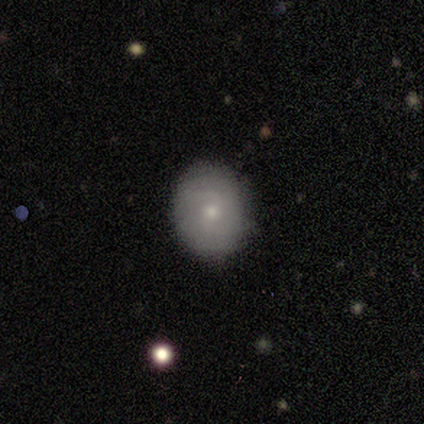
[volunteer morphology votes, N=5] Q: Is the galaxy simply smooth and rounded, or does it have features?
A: smooth — 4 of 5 (80%).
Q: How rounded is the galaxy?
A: round — 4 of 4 (100%).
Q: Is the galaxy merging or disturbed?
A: none — 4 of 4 (100%).